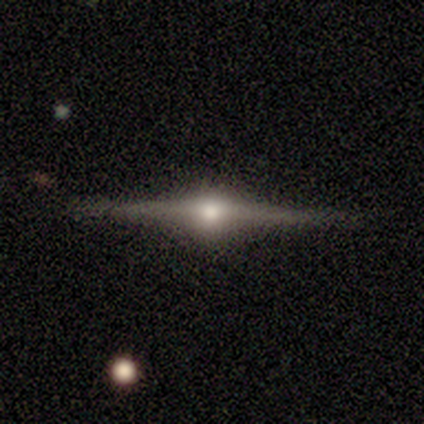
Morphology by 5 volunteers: Smooth or featured: featured or disk — 80% (smooth — 20%)
Edge-on disk: yes — 100%
Edge-on bulge: rounded — 100%
Merging: none — 100%